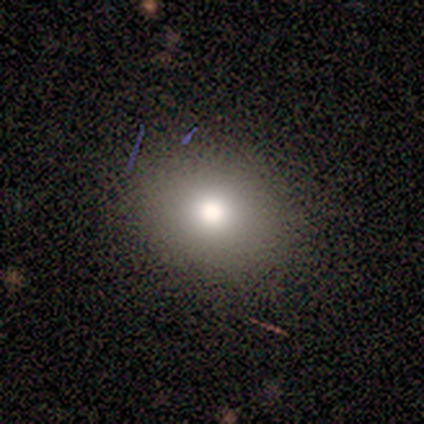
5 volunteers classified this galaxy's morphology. A smooth galaxy with no disk features (80%) that is round (75%).

Vote fractions:
- Smooth or featured? smooth: 80% / featured or disk: 20% / star or artifact: 0%
- How rounded? round: 75% / in between: 25% / cigar-shaped: 0%
- Merging? none: 80% / minor disturbance: 20% / major disturbance: 0% / merger: 0%